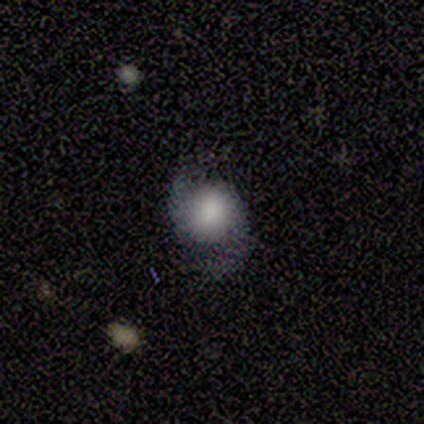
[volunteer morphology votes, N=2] Smooth or featured? featured or disk (100%)
Edge-on disk? no (100%)
Bar? strong (50%, tied with no)
Spiral arms? yes (100%)
Spiral winding? medium (50%, tied with loose)
Spiral arm count? 2 (50%, tied with can't tell)
Bulge size? moderate (50%, tied with none)
Merging? none (50%, tied with merger)